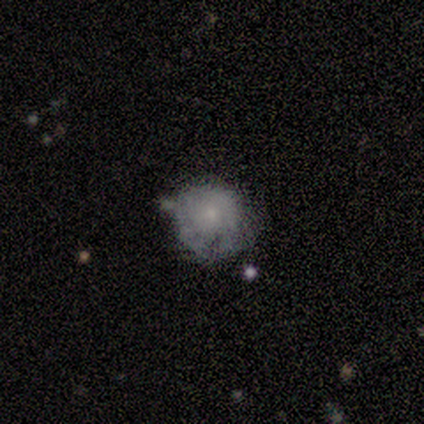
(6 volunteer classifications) Smooth or featured: featured or disk — 50% (star or artifact — 33%)
Edge-on disk: no — 100%
Bar: no — 67% (weak — 33%)
Spiral arms: no — 67% (yes — 33%)
Bulge size: small — 67% (moderate — 33%)
Merging: none — 50% (tied with minor disturbance — 50%)